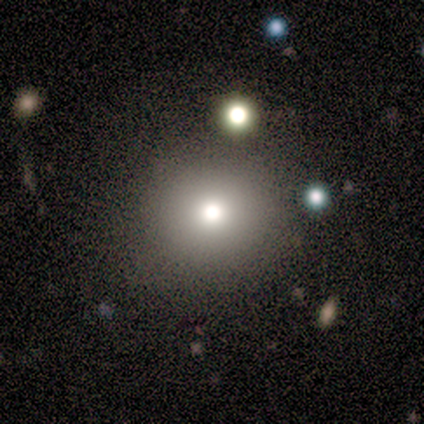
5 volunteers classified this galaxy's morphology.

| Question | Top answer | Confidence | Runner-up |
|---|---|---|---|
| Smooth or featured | smooth | 60% | featured or disk (20%) |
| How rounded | round | 100% | — |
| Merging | none | 50% | minor disturbance (25%) |